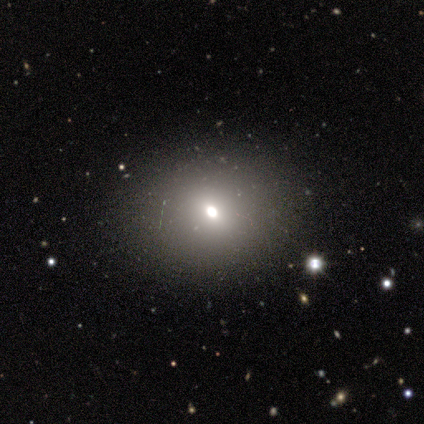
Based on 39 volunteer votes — A smooth galaxy with no disk features (59%) that is round (48%, tied with in between). Merging: none (80%).